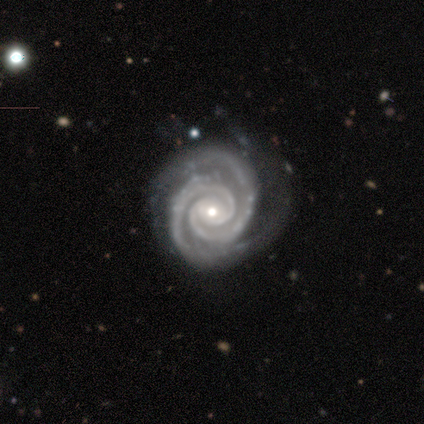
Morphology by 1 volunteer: A featured or disk galaxy (100%) with no bar (100%), 2 (100%) tight (100%) spiral arms (100%) and a moderate central bulge (100%).

Vote fractions:
- Smooth or featured? featured or disk: 100% / smooth: 0% / star or artifact: 0%
- Edge-on disk? no: 100% / yes: 0%
- Bar? no: 100% / strong: 0% / weak: 0%
- Spiral arms? yes: 100% / no: 0%
- Spiral winding? tight: 100% / medium: 0% / loose: 0%
- Spiral arm count? 2: 100% / 1: 0% / 3: 0% / 4: 0% / more than 4: 0% / can't tell: 0%
- Bulge size? moderate: 100% / dominant: 0% / large: 0% / small: 0% / none: 0%
- Merging? minor disturbance: 100% / none: 0% / major disturbance: 0% / merger: 0%